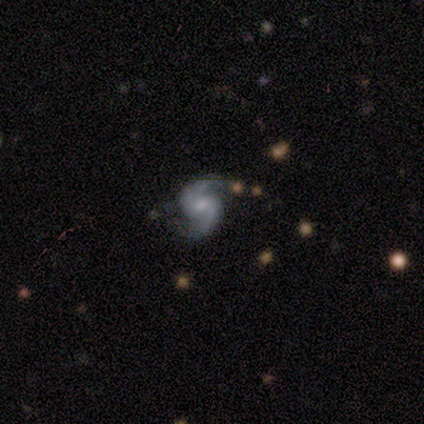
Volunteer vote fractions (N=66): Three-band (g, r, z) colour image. It shows a featured or disk galaxy (86%) with a weak bar (48%, tied with no), 2 (93%) loose (46%) spiral arms (96%) and a moderate central bulge (48%). Merging: none (69%).